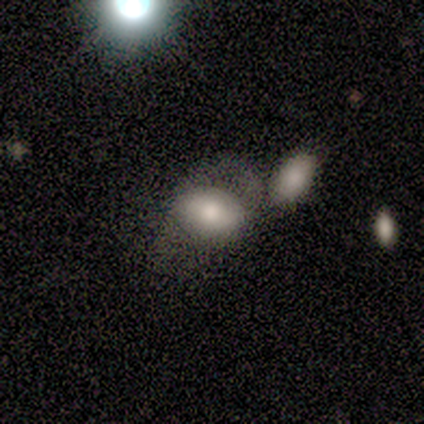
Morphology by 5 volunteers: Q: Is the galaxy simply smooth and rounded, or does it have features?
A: featured or disk — 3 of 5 (60%).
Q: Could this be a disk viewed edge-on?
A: no — 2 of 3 (67%).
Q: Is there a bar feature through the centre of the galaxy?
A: strong — 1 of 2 (50%, tied with weak).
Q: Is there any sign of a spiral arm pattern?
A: yes — 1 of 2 (50%, tied with no).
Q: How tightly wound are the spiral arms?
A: loose — 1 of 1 (100%).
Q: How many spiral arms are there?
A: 2 — 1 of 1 (100%).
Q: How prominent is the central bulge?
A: large — 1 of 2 (50%, tied with moderate).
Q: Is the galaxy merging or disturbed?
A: merger — 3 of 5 (60%).